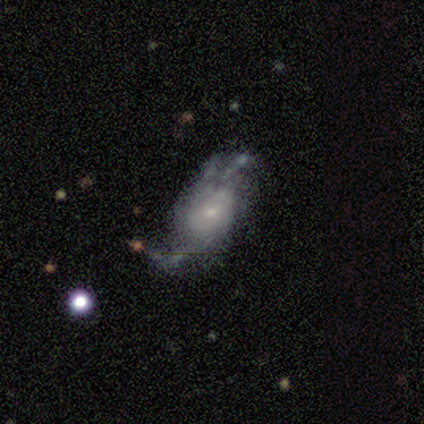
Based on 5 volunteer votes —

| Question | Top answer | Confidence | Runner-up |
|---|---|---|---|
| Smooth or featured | featured or disk | 60% | smooth (40%) |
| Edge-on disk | no | 100% | — |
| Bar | no | 67% | weak (33%) |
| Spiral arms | yes | 67% | no (33%) |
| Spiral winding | loose | 100% | — |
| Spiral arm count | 2 | 50% | tied: can't tell (50%) |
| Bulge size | small | 100% | — |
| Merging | none | 60% | minor disturbance (40%) |